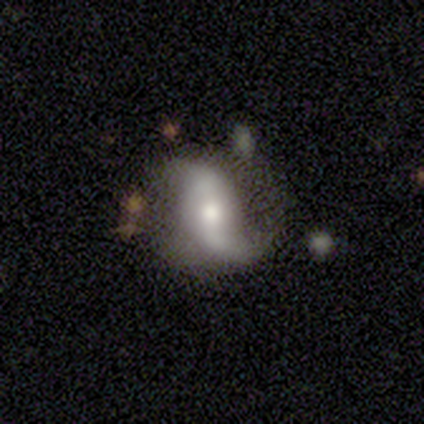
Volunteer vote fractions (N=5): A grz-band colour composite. It shows a smooth galaxy with no disk features (60%) that is in between round and cigar-shaped (67%). Merging: none (40%, tied with minor disturbance).